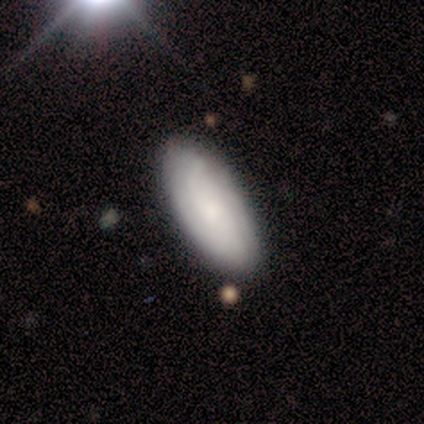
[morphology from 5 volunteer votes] Smooth or featured? 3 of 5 (60%) said smooth. How rounded? 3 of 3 (100%) said in between. Merging? 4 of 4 (100%) said none.